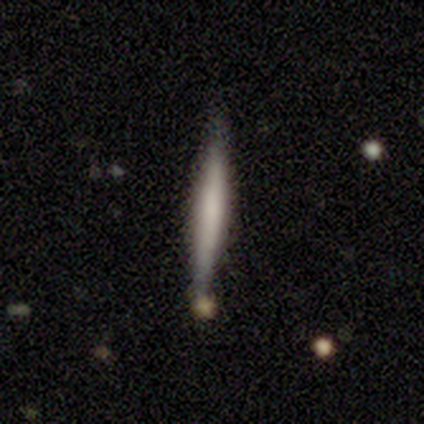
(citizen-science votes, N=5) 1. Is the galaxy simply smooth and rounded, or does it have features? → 60% smooth, 40% featured or disk, 0% star or artifact.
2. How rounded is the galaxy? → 100% cigar-shaped, 0% round, 0% in between.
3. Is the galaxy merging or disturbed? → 80% none, 20% minor disturbance, 0% major disturbance, 0% merger.